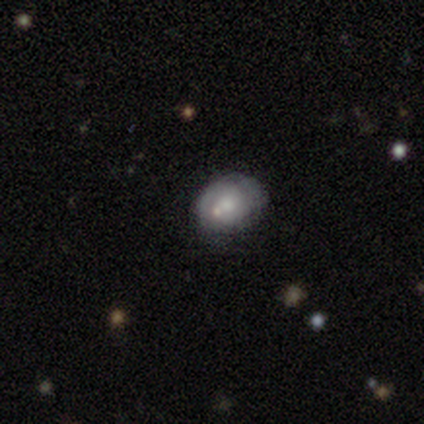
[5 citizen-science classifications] smooth_or_featured: featured or disk (p=0.60) [alt: smooth p=0.40]
disk_edge_on: no (p=1.00)
bar: no (p=1.00)
has_spiral_arms: yes (p=0.67) [alt: no p=0.33]
spiral_winding: medium (p=1.00)
spiral_arm_count: 2 (p=0.50) [tied with: can't tell p=0.50]
bulge_size: small (p=0.67) [alt: moderate p=0.33]
merging: none (p=0.80) [alt: major disturbance p=0.20]